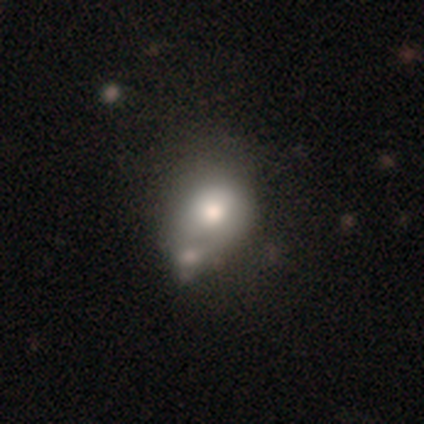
This is likely a featured or disk galaxy (60%). It is clearly not viewed edge-on (100%). Bar: clearly no (100%). Spiral arm pattern: clearly no (100%). Central bulge: likely large (67%). Merging: possibly minor disturbance (50%, tied with merger).